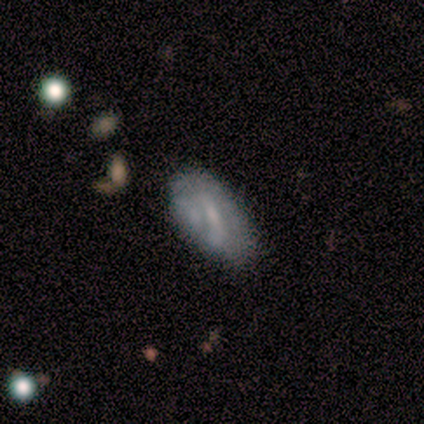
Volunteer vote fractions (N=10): Smooth or featured? featured or disk (60%)
Edge-on disk? no (83%)
Bar? weak (80%)
Spiral arms? no (60%)
Bulge size? small (80%)
Merging? none (80%)